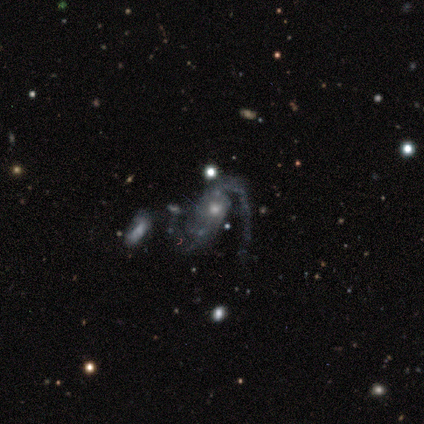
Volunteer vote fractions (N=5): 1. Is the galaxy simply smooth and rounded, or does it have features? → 100% featured or disk, 0% smooth, 0% star or artifact.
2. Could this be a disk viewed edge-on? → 100% no, 0% yes.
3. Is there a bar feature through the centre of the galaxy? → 100% no, 0% strong, 0% weak.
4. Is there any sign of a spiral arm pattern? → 80% yes, 20% no.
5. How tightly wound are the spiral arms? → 75% loose, 25% medium, 0% tight.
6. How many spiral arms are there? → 50% 2, 25% 1, 25% can't tell, 0% 3, 0% 4, 0% more than 4.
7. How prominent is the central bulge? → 60% moderate, 20% small, 20% none, 0% dominant, 0% large.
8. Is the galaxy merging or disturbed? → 40% merger, 20% none, 20% minor disturbance, 20% major disturbance.